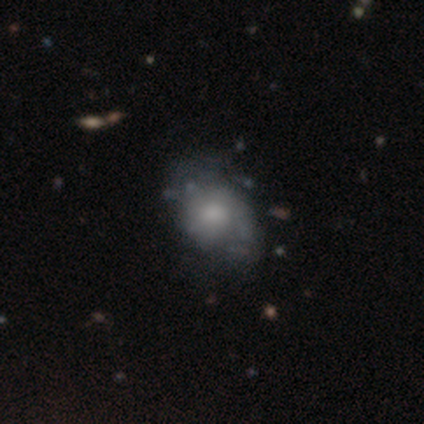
This is likely a featured or disk galaxy (62%). It is clearly not viewed edge-on (96%). Bar: clearly no (83%). Spiral arm pattern: likely yes (61%). Spiral arm count: possibly 2 (57%). Spiral winding: possibly medium (57%). Central bulge: possibly moderate (48%). Merging: marginally minor disturbance (36%).